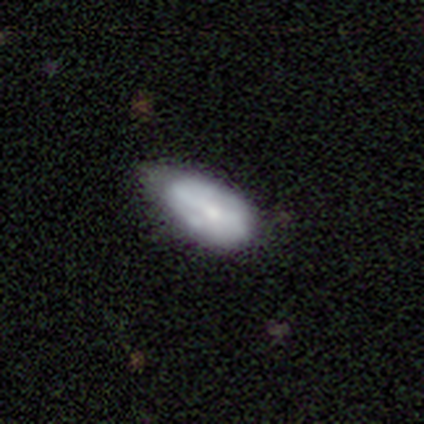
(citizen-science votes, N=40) This is likely a smooth galaxy (62%). How rounded: clearly in between (92%). Merging: marginally none (45%).